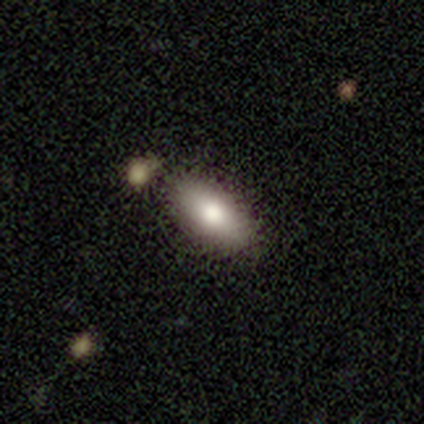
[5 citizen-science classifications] Overall: smooth (60%; star or artifact 40%). How rounded: in between (100%). Merging: minor disturbance (67%; none 33%).